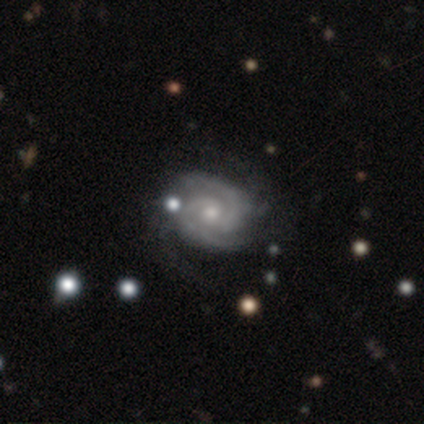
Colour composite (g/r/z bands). It shows a featured or disk galaxy (100%) with no bar (84%), 2 (86%) tight (53%) spiral arms (95%) and a moderate central bulge (63%). Merging: none (55%).